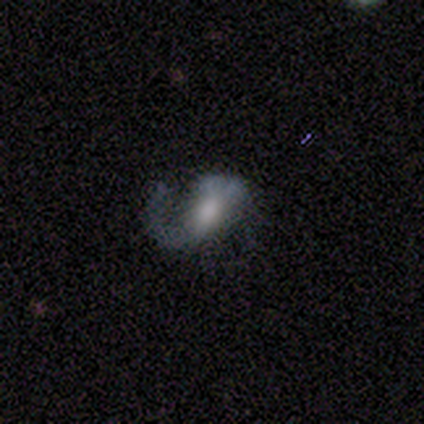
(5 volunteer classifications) This is clearly a featured or disk galaxy (80%). It is clearly not viewed edge-on (100%). Bar: possibly strong (50%). Spiral arm pattern: possibly yes (50%, tied with no). Spiral arm count: clearly 2 (100%). Spiral winding: clearly loose (100%). Central bulge: clearly moderate (100%). Merging: clearly major disturbance (80%).